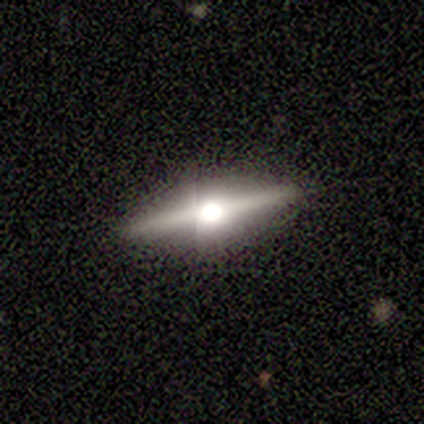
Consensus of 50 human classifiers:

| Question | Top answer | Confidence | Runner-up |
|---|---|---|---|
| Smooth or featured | featured or disk | 86% | smooth (12%) |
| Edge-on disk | yes | 98% | no (2%) |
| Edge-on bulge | rounded | 93% | boxy (7%) |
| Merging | none | 96% | minor disturbance (4%) |